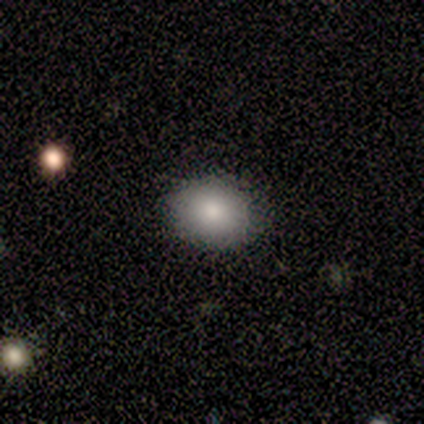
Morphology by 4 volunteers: smooth 75%, featured or disk 25%, star or artifact 0%. Down the decision tree: how rounded — in between (100%); merging — none (75%).